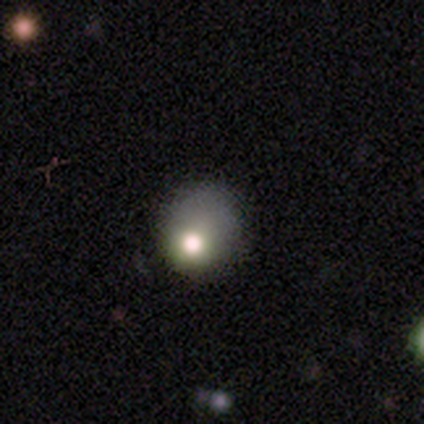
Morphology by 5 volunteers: Smooth or featured? 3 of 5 (60%) said star or artifact.